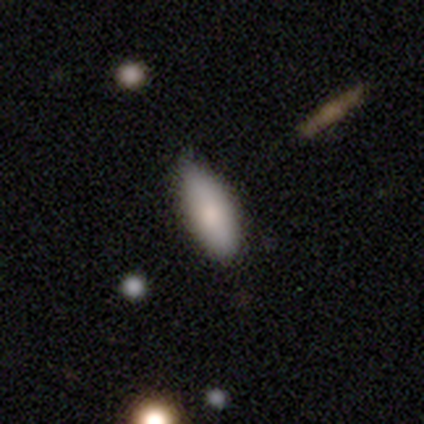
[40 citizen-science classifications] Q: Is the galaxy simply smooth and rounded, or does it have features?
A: smooth — 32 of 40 (80%).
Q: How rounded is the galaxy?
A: in between — 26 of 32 (81%).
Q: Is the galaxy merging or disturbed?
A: none — 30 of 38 (79%).